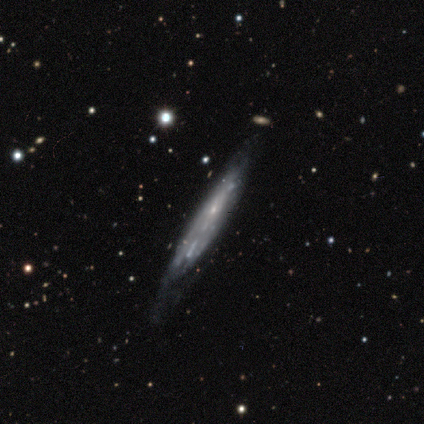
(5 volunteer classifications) Smooth or featured? 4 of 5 (80%) said featured or disk. Edge-on disk? 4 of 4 (100%) said yes. Edge-on bulge? 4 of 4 (100%) said none. Merging? 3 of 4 (75%) said none.